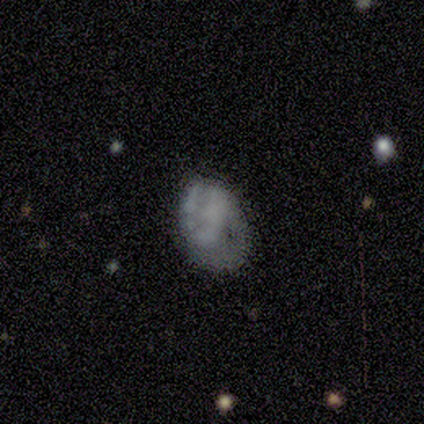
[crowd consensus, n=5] This appears to be a featured or disk galaxy (80%) with no bar (100%), no spiral arms (75%) and no central bulge (75%). Merging: minor disturbance (60%).